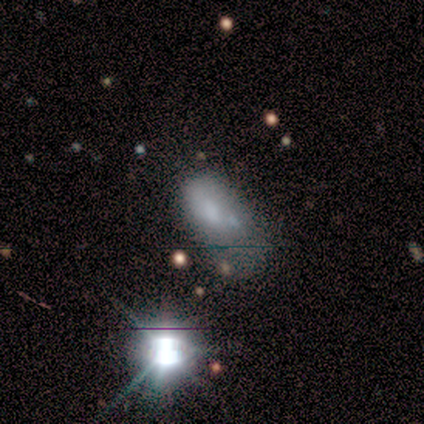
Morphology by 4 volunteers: type=featured or disk (50%); edge-on=yes (50%, tied with no); edge-on bulge=none (100%); merging=major disturbance (67%).